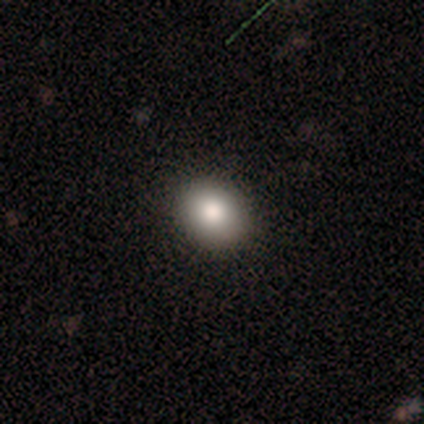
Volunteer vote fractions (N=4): smooth 75%, star or artifact 25%, featured or disk 0%. Down the decision tree: how rounded — round (67%); merging — none (100%).